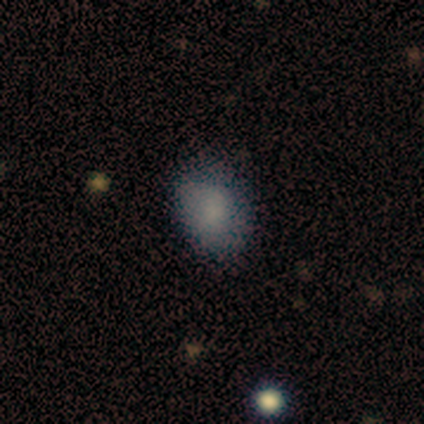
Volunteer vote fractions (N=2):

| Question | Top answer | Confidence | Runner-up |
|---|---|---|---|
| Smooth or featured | smooth | 100% | — |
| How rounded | round | 50% | tied: in between (50%) |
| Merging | none | 100% | — |